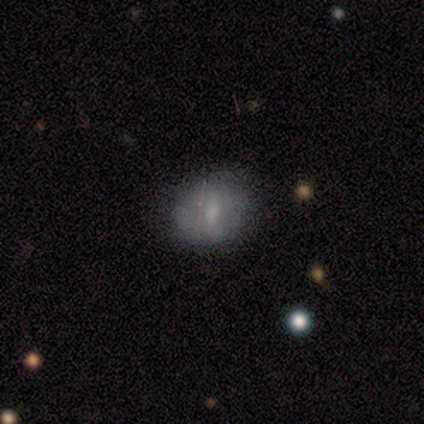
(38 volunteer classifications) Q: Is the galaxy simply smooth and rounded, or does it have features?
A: smooth — 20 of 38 (53%).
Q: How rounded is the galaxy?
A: round — 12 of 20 (60%).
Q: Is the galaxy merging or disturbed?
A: none — 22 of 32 (69%).